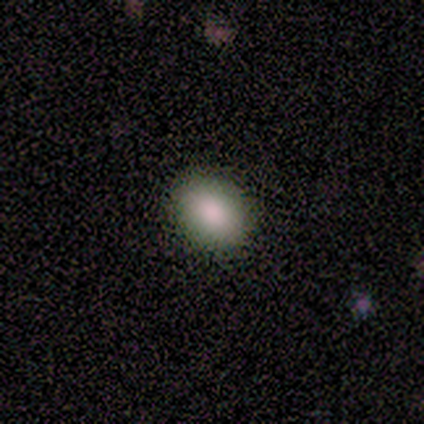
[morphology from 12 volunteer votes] This appears to be a smooth galaxy with no disk features (67%) that is in between round and cigar-shaped (75%). Merging: none (90%).